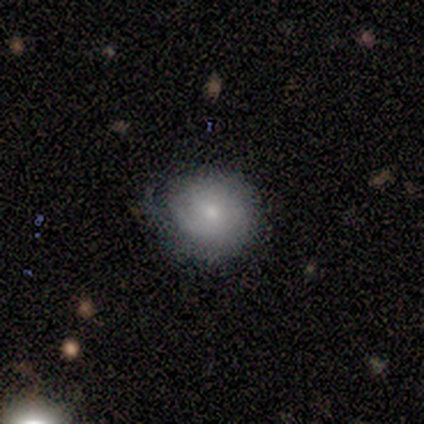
Morphology: type=smooth (33%, tied with featured or disk and star or artifact); roundness=round (100%); merging=none (50%, tied with minor disturbance).